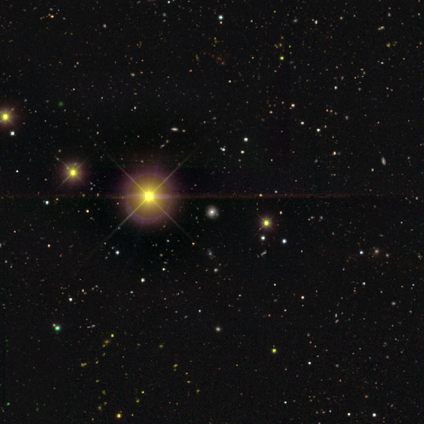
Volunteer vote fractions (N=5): Volunteers were most divided on "smooth or featured": star or artifact: 80%, smooth: 20%, featured or disk: 0%.